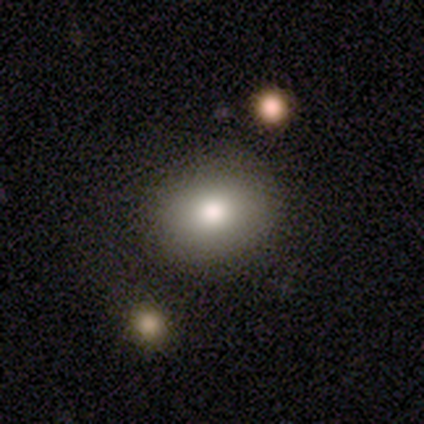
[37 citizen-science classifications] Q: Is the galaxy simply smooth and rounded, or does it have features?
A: smooth — 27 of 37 (73%).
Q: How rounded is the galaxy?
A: round — 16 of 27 (59%).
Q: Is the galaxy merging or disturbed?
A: none — 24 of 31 (77%).